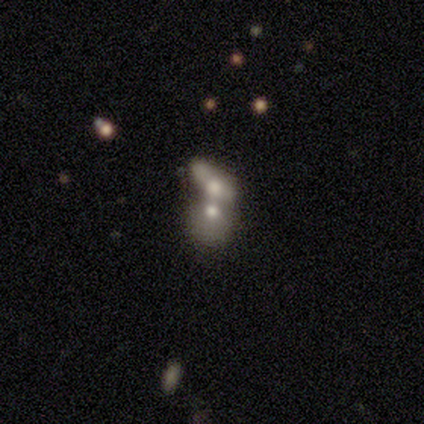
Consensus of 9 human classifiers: Smooth or featured: smooth — 67% (featured or disk — 33%)
How rounded: in between — 100%
Merging: merger — 100%